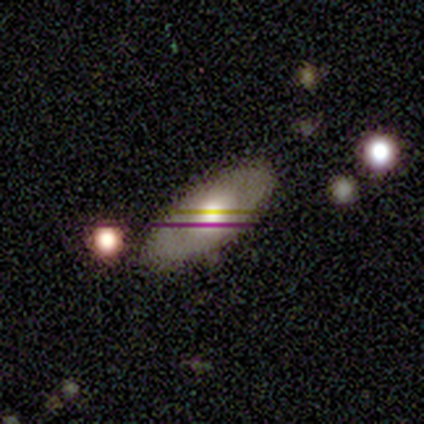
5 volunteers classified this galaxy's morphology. Smooth or featured: smooth — 80% (featured or disk — 20%)
How rounded: in between — 100%
Merging: none — 100%